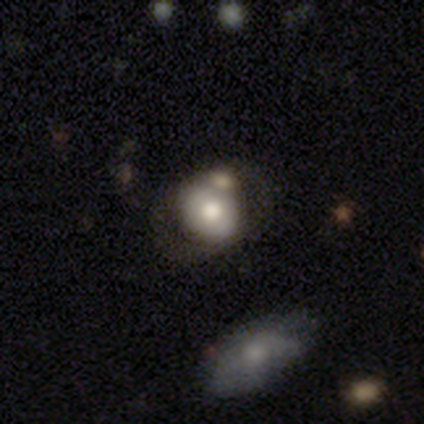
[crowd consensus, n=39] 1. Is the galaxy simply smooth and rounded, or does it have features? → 51% smooth, 38% featured or disk, 10% star or artifact.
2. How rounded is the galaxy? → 65% round, 35% in between, 0% cigar-shaped.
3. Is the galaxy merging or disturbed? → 51% none, 23% merger, 14% minor disturbance, 11% major disturbance.